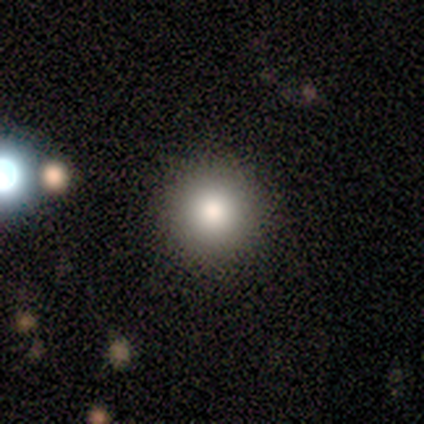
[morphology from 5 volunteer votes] Smooth or featured? smooth (40%, tied with star or artifact)
How rounded? round (100%)
Merging? none (67%)